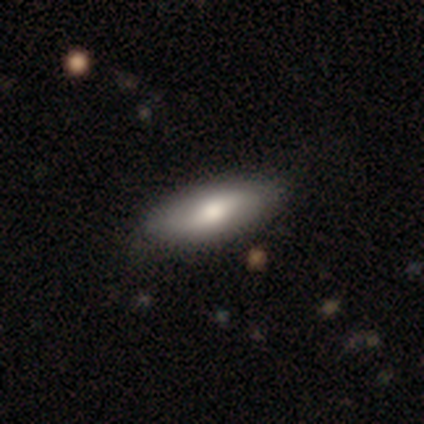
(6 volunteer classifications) Smooth or featured? smooth (83%)
How rounded? in between (80%)
Merging? none (83%)